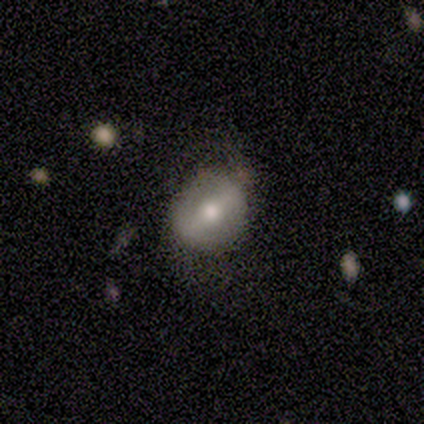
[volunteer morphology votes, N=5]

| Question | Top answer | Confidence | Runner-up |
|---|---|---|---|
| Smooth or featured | featured or disk | 80% | smooth (20%) |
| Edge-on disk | no | 75% | yes (25%) |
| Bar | strong | 67% | weak (33%) |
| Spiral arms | yes | 67% | no (33%) |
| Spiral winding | tight | 50% | tied: medium (50%) |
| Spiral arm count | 2 | 50% | tied: can't tell (50%) |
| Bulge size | moderate | 67% | large (33%) |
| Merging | none | 80% | minor disturbance (20%) |